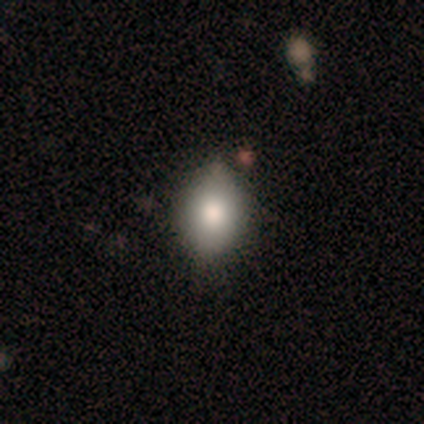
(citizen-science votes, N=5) smooth 100%, featured or disk 0%, star or artifact 0%. Down the decision tree: how rounded — in between (100%); merging — none (60%).